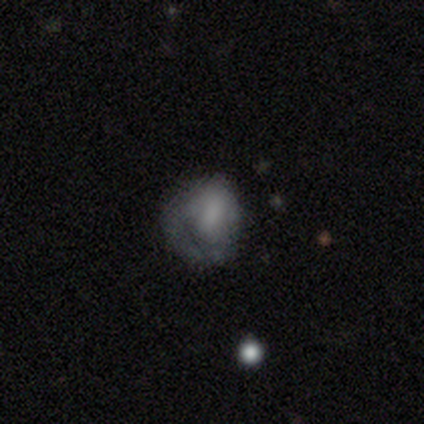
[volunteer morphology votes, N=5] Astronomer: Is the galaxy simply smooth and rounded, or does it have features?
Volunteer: featured or disk — 60% (runner-up: smooth, 40%).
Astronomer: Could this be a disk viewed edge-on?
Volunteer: no — 100%.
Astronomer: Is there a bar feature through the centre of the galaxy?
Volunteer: no — 100%.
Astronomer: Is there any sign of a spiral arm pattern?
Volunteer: no — 100%.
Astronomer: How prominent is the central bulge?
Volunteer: large — 67%.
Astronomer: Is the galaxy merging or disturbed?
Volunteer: minor disturbance — 60%.